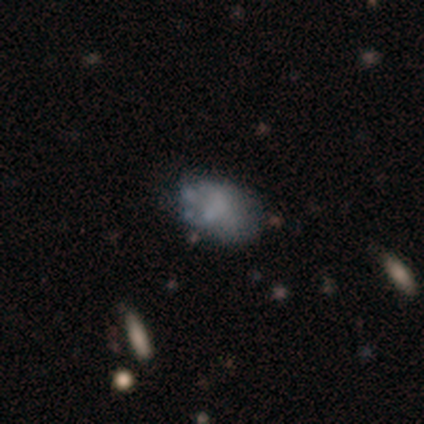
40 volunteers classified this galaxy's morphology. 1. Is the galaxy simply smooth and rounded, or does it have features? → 48% smooth, 38% featured or disk, 15% star or artifact.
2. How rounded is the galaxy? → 79% in between, 21% round, 0% cigar-shaped.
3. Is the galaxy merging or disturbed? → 68% none, 24% minor disturbance, 6% merger, 3% major disturbance.